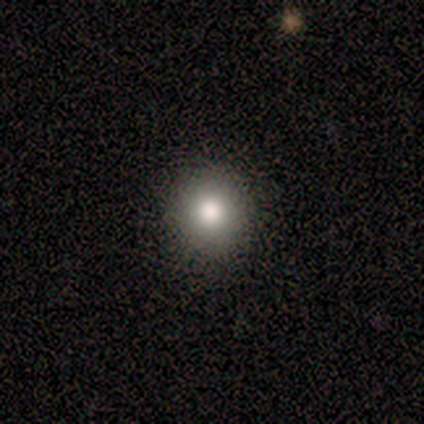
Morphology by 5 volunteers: Smooth or featured: smooth — 80% (star or artifact — 20%)
How rounded: round — 100%
Merging: none — 100%